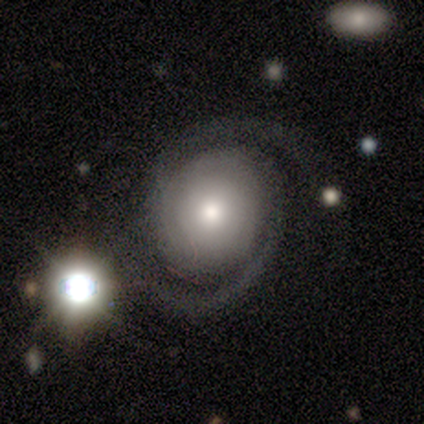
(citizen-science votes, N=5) Smooth or featured? 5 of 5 (100%) said featured or disk. Edge-on disk? 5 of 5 (100%) said no. Bar? 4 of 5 (80%) said no. Spiral arms? 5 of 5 (100%) said yes. Spiral winding? 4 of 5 (80%) said tight. Spiral arm count? 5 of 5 (100%) said 2. Bulge size? 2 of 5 (40%) said moderate. Merging? 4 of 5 (80%) said none.